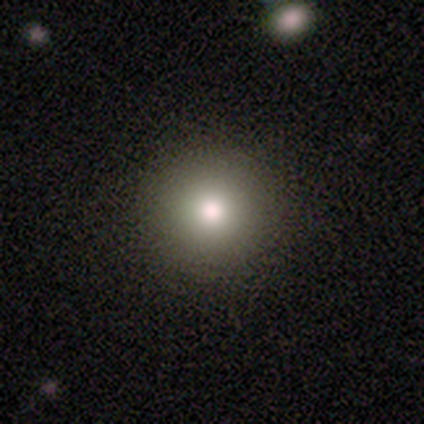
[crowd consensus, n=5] smooth 80%, star or artifact 20%, featured or disk 0%. Down the decision tree: how rounded — round (100%); merging — none (100%).